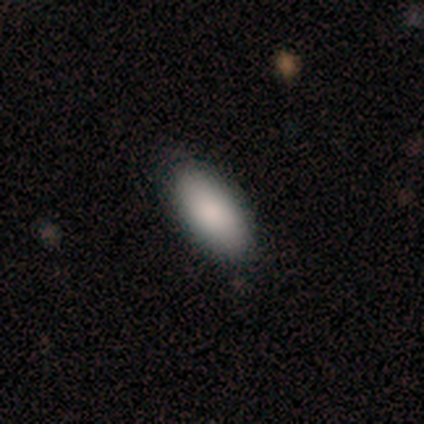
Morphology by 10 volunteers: Smooth or featured?
  - smooth: 100% *
  - featured or disk: 0%
  - star or artifact: 0%
How rounded?
  - in between: 100% *
  - round: 0%
  - cigar-shaped: 0%
Merging?
  - none: 90% *
  - minor disturbance: 10%
  - major disturbance: 0%
  - merger: 0%